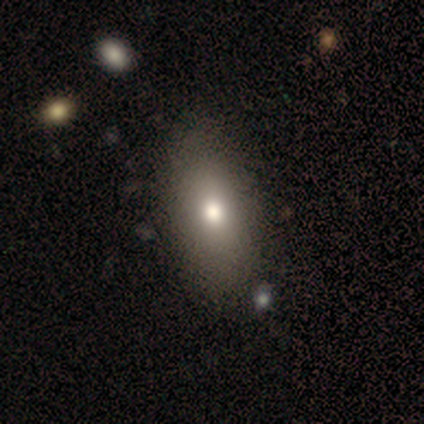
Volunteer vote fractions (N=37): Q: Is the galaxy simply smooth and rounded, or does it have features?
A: smooth — 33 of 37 (89%).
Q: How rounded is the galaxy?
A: in between — 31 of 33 (94%).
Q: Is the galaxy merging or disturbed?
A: none — 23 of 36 (64%).